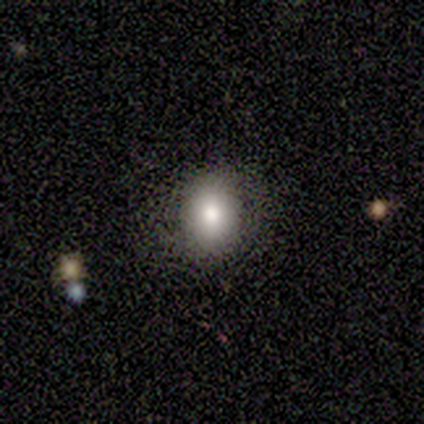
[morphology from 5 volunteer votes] smooth 80%, featured or disk 20%, star or artifact 0%. Down the decision tree: how rounded — round (50%, tied with in between); merging — none (60%).